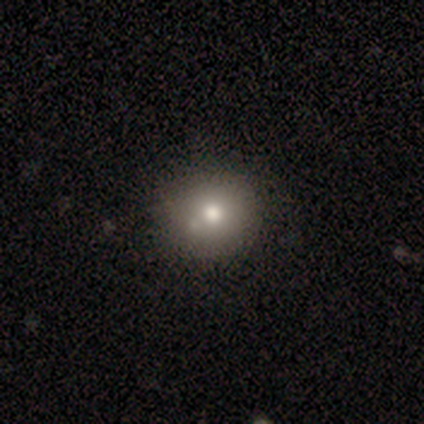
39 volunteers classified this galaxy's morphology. Smooth or featured? smooth (74%)
How rounded? round (83%)
Merging? none (72%)